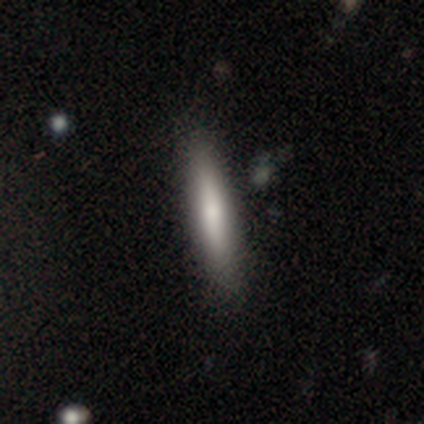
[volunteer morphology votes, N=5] Smooth or featured?
  - smooth: 60% *
  - featured or disk: 20%
  - star or artifact: 20%
How rounded?
  - cigar-shaped: 100% *
  - round: 0%
  - in between: 0%
Merging?
  - none: 100% *
  - minor disturbance: 0%
  - major disturbance: 0%
  - merger: 0%